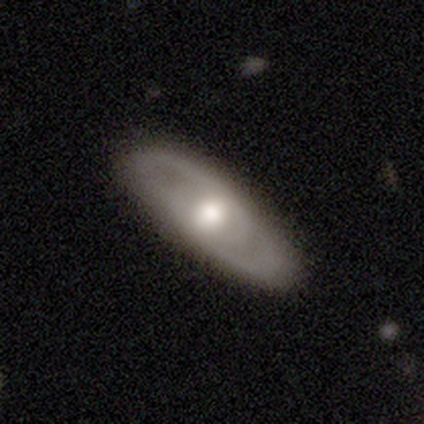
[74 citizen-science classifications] A featured or disk galaxy (58%) with no bar (73%), 2 (48%) medium (48%) spiral arms (62%) and a moderate central bulge (76%).

Vote fractions:
- Smooth or featured? featured or disk: 58% / smooth: 39% / star or artifact: 3%
- Edge-on disk? no: 86% / yes: 14%
- Bar? no: 73% / weak: 27% / strong: 0%
- Spiral arms? yes: 62% / no: 38%
- Spiral winding? medium: 48% / tight: 39% / loose: 13%
- Spiral arm count? 2: 48% / can't tell: 39% / 1: 13% / 3: 0% / 4: 0% / more than 4: 0%
- Bulge size? moderate: 76% / large: 24% / dominant: 0% / small: 0% / none: 0%
- Merging? none: 53% / minor disturbance: 6% / major disturbance: 1% / merger: 0%